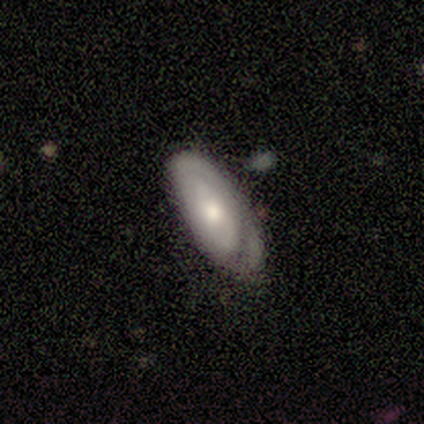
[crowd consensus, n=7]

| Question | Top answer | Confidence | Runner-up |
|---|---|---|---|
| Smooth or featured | featured or disk | 57% | smooth (43%) |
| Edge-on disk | no | 75% | yes (25%) |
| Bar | no | 100% | — |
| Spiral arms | yes | 67% | no (33%) |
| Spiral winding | tight | 50% | tied: medium (50%) |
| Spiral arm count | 2 | 50% | tied: can't tell (50%) |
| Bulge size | moderate | 67% | small (33%) |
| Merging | none | 43% | tied: minor disturbance (43%) |